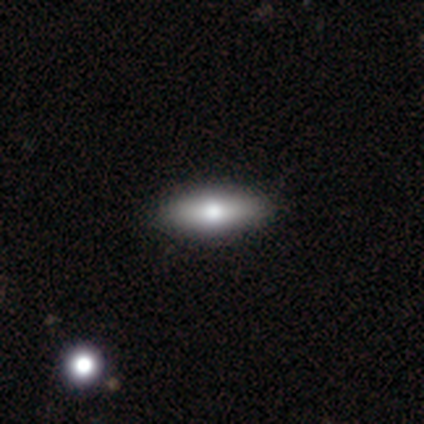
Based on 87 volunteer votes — Overall: smooth (64%; featured or disk 25%). How rounded: in between (73%). Merging: none (95%).